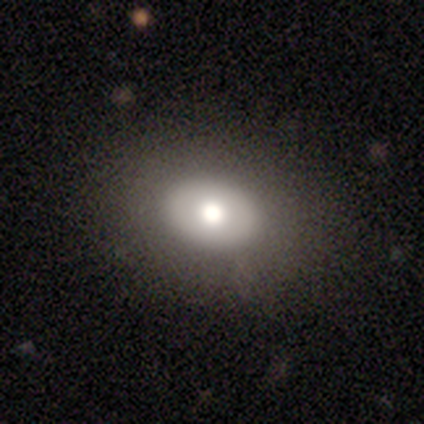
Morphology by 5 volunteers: Smooth or featured? 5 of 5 (100%) said smooth. How rounded? 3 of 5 (60%) said in between. Merging? 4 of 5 (80%) said none.